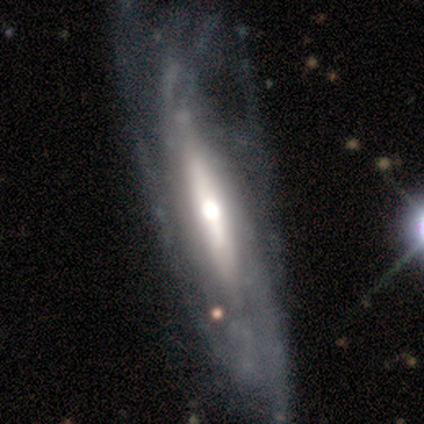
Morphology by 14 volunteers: This appears to be a featured or disk galaxy (79%) with no bar (57%), tight (67%) spiral arms (86%) and a moderate central bulge (86%). Merging: none (50%).